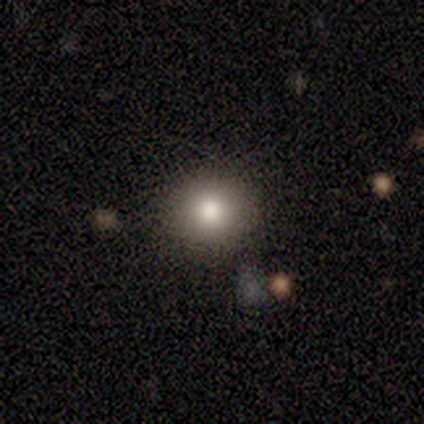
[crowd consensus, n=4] This is likely a smooth galaxy (75%). How rounded: clearly round (100%). Merging: clearly none (100%).